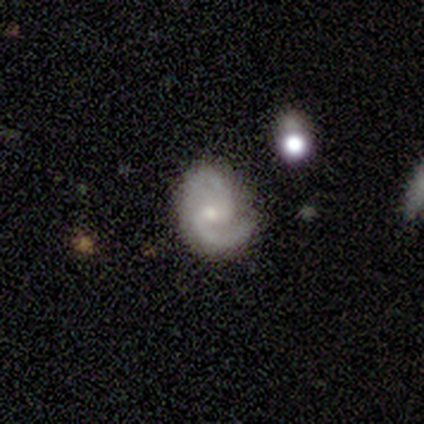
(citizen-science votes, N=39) smooth-or-featured: featured or disk: 92% | smooth: 8% | star or artifact: 0%
  disk-edge-on: no: 100% | yes: 0%
    bar: weak: 64% | no: 36% | strong: 0%
    has-spiral-arms: yes: 97% | no: 3%
      spiral-winding: medium: 66% | tight: 20% | loose: 14%
      spiral-arm-count: 2: 97% | 1: 3% | 3: 0% | 4: 0% | more than 4: 0% | can't tell: 0%
    bulge-size: small: 61% | moderate: 33% | dominant: 3% | none: 3% | large: 0%
  merging: none: 62% | minor disturbance: 31% | major disturbance: 5% | merger: 3%